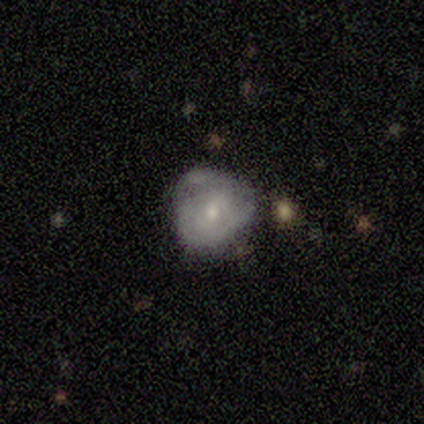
Smooth or featured? 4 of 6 (67%) said featured or disk. Edge-on disk? 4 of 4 (100%) said no. Bar? 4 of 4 (100%) said no. Spiral arms? 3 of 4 (75%) said yes. Spiral winding? 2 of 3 (67%) said tight. Spiral arm count? 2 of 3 (67%) said can't tell. Bulge size? 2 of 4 (50%, tied with small) said moderate. Merging? 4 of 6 (67%) said none.